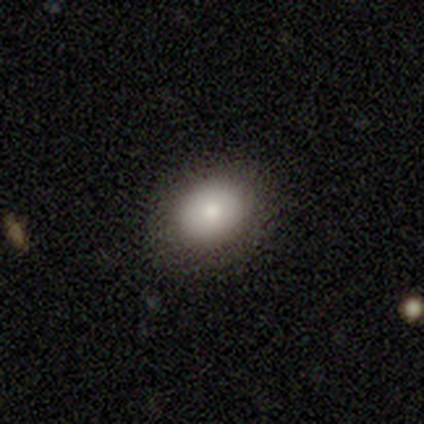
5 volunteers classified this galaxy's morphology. Smooth or featured? smooth (80%)
How rounded? in between (75%)
Merging? none (80%)